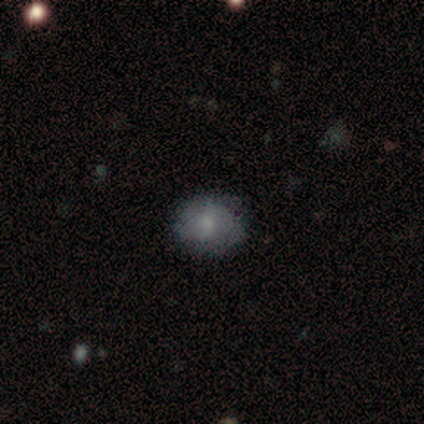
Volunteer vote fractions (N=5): smooth_or_featured: smooth (p=0.60) [alt: featured or disk p=0.40]
how_rounded: in between (p=0.67) [alt: round p=0.33]
merging: none (p=0.60) [alt: minor disturbance p=0.20]